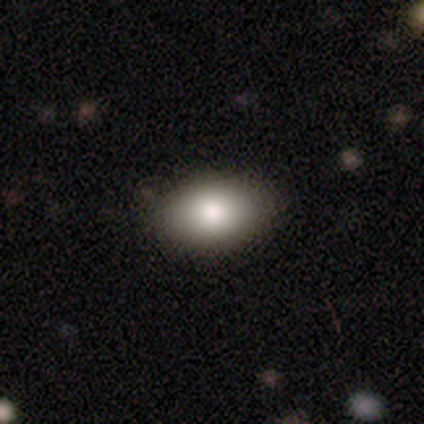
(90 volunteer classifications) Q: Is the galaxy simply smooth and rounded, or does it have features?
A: smooth — 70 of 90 (78%).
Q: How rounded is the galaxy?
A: in between — 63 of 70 (90%).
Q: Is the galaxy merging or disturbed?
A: none — 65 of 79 (82%).